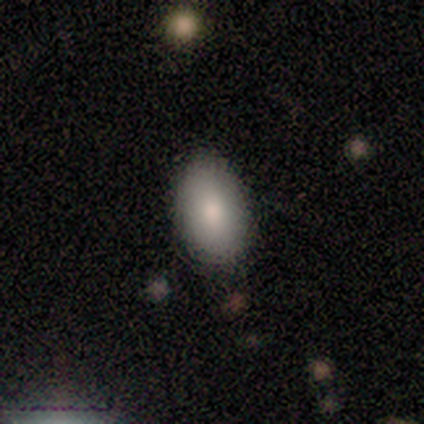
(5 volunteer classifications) Smooth or featured?
  - smooth: 80% *
  - star or artifact: 20%
  - featured or disk: 0%
How rounded?
  - in between: 100% *
  - round: 0%
  - cigar-shaped: 0%
Merging?
  - none: 75% *
  - major disturbance: 25%
  - minor disturbance: 0%
  - merger: 0%